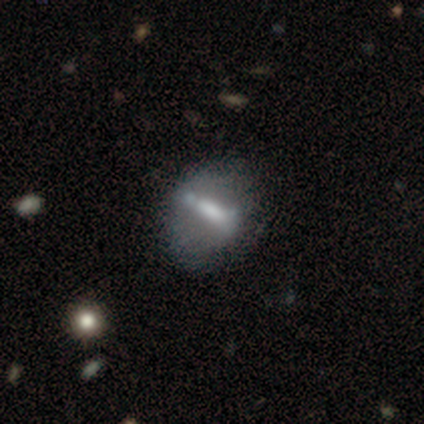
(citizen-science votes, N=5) This appears to be a featured or disk galaxy (60%) with a strong bar (100%), no spiral arms (100%) and a small central bulge (67%). Merging: none (60%).